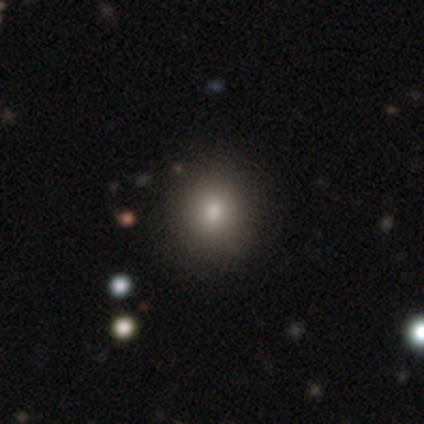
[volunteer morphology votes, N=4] Overall: smooth (100%). How rounded: round (50%, tied with in between). Merging: none (75%).